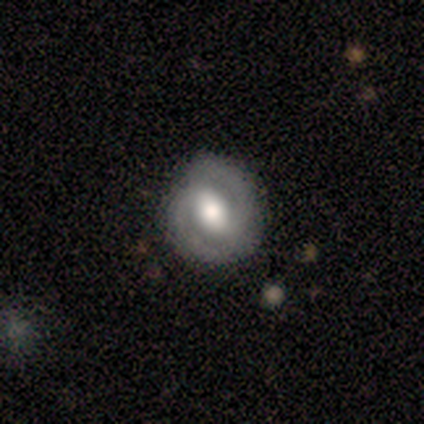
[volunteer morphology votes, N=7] Volunteers were most divided on "spiral winding": medium: 60%, tight: 40%, loose: 0%. More confident: smooth or featured — featured or disk (100%); spiral arm count — 2 (100%); bulge size — moderate (100%); edge-on disk — no (86%); spiral arms — yes (83%); merging — none (71%); bar — strong (67%).